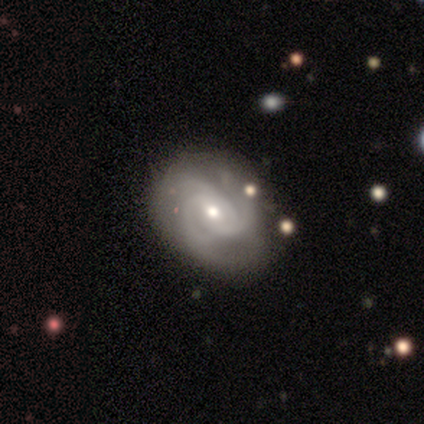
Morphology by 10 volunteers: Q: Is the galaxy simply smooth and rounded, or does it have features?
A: featured or disk — 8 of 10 (80%).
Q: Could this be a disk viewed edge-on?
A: no — 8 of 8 (100%).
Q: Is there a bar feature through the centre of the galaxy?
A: no — 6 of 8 (75%).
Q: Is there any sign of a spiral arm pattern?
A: yes — 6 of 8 (75%).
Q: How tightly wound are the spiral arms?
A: tight — 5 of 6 (83%).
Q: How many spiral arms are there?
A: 3 — 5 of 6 (83%).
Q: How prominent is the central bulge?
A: moderate — 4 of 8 (50%, tied with small).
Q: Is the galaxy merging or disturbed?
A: none — 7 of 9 (78%).